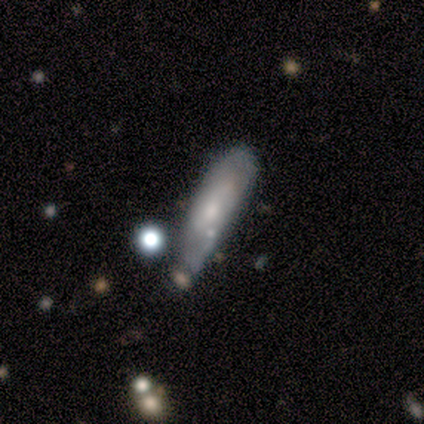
Smooth or featured: featured or disk — 75% (smooth — 25%)
Edge-on disk: no — 100%
Bar: no — 83% (weak — 17%)
Spiral arms: no — 67% (yes — 33%)
Bulge size: moderate — 83% (none — 17%)
Merging: minor disturbance — 62% (none — 25%)